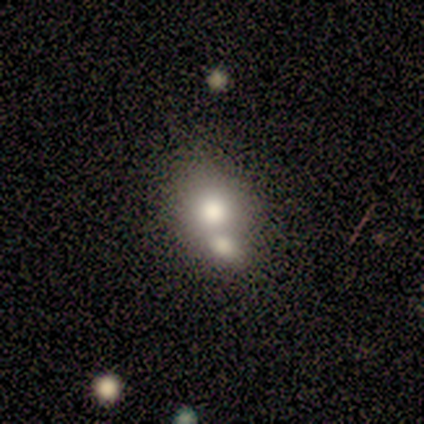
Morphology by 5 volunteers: Smooth or featured: smooth — 80% (star or artifact — 20%)
How rounded: round — 75% (in between — 25%)
Merging: none — 50% (tied with merger — 50%)